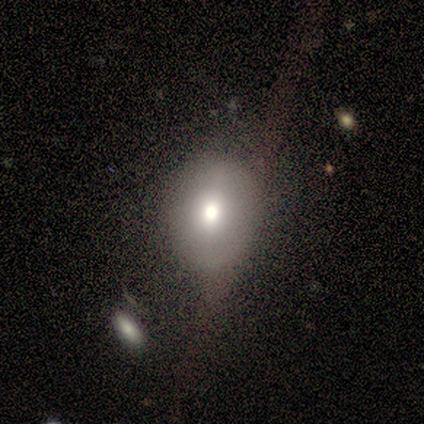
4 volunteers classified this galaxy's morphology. type=smooth (50%); roundness=round (50%, tied with in between); merging=none (67%).